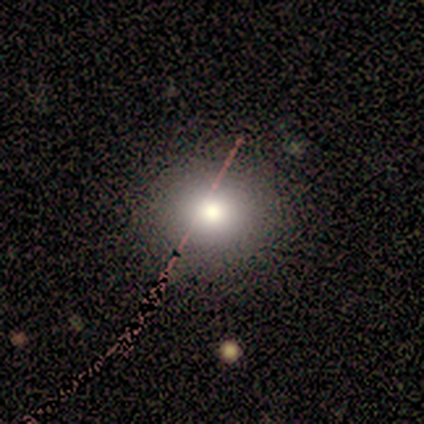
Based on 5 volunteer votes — Volunteers were most divided on "how rounded": round: 67%, in between: 33%, cigar-shaped: 0%. More confident: merging — none (75%); smooth or featured — smooth (60%).